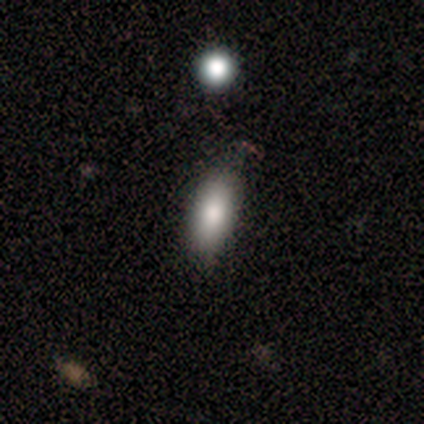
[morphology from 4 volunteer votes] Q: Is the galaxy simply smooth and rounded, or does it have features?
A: smooth — 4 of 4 (100%).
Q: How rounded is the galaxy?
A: in between — 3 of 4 (75%).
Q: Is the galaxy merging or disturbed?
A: none — 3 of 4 (75%).